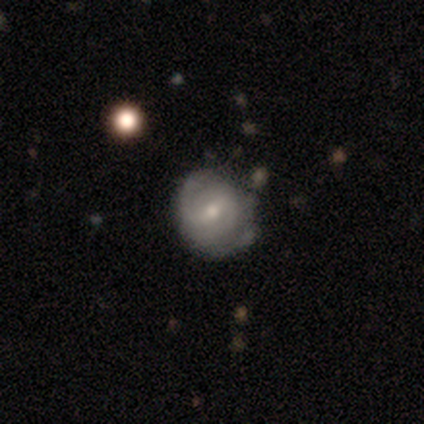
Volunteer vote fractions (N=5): Smooth or featured? smooth (60%)
How rounded? round (100%)
Merging? none (80%)